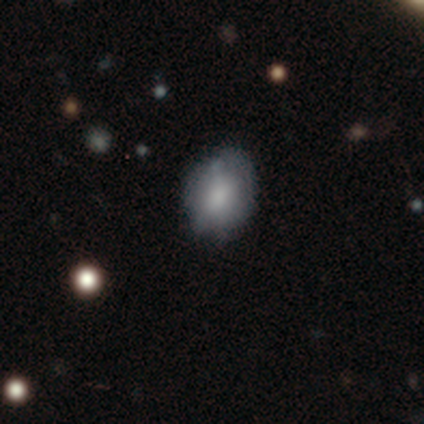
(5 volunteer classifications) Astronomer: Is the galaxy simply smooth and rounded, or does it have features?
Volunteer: smooth — 100%.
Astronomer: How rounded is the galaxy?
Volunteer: in between — 80%.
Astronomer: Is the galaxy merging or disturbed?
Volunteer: minor disturbance — 60% (runner-up: none, 40%).